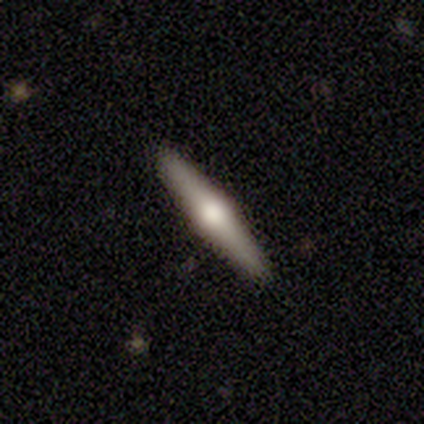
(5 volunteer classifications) featured or disk 60%, smooth 40%, star or artifact 0%. Down the decision tree: edge-on disk — yes (100%); edge-on bulge — rounded (100%); merging — none (100%).